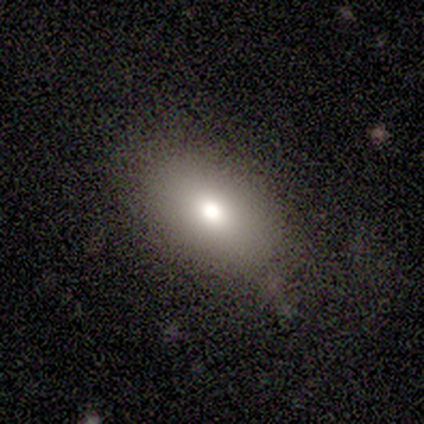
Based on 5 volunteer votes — A star or artifact, not a galaxy (60%).